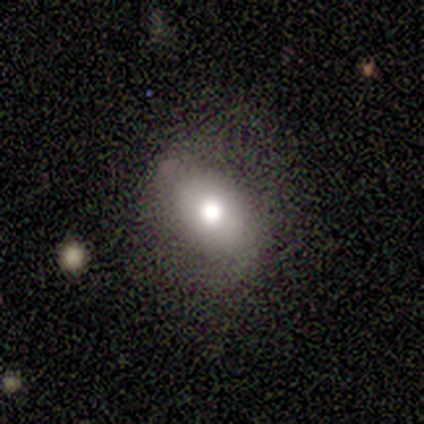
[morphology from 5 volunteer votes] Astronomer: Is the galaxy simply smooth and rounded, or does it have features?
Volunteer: smooth — 60% (runner-up: featured or disk, 40%).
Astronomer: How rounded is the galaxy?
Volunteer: round — 67%.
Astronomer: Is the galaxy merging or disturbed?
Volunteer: none — 80%.